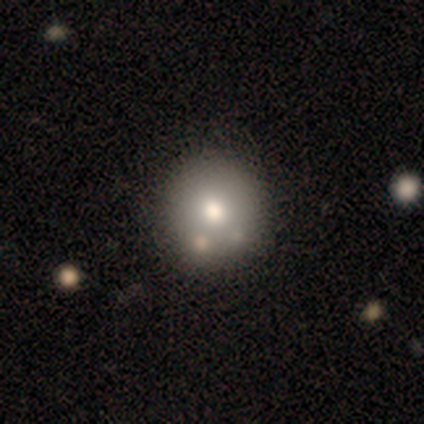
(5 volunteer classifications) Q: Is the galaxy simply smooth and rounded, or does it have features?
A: smooth — 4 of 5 (80%).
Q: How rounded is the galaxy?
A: round — 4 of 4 (100%).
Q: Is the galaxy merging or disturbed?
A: none — 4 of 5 (80%).